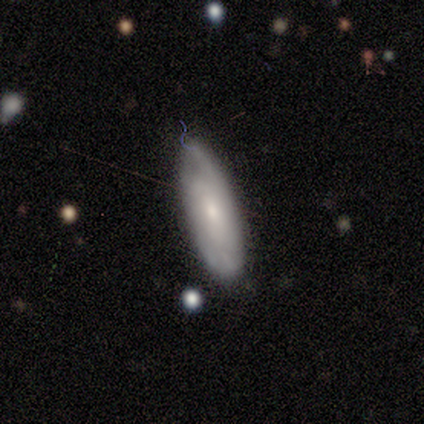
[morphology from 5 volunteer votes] Volunteers were most divided on "bar" (2-way tie): weak: 50%, no: 50%, strong: 0%; "spiral winding" (2-way tie): tight: 50%, medium: 50%, loose: 0%; "spiral arm count" (2-way tie): 3: 50%, can't tell: 50%, 1: 0%, 2: 0%, 4: 0%, more than 4: 0%. More confident: spiral arms — yes (100%); bulge size — small (100%); merging — none (75%); edge-on disk — no (67%); smooth or featured — featured or disk (60%).